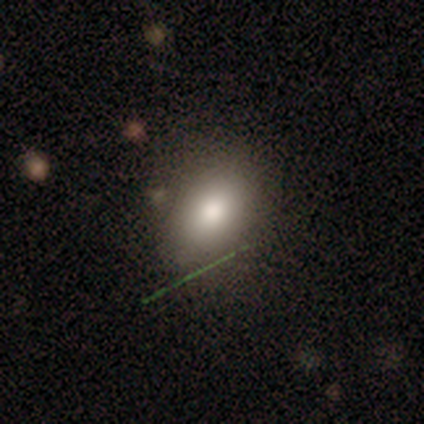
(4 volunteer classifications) This appears to be a smooth galaxy with no disk features (50%, tied with featured or disk) that is in between round and cigar-shaped (50%, tied with cigar-shaped). Merging: none (75%).